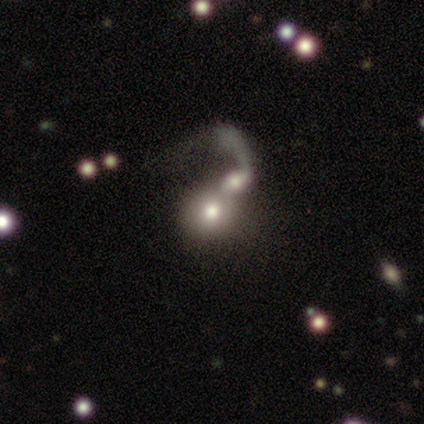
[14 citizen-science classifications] This is possibly a smooth galaxy (57%). How rounded: possibly in between (50%). Merging: likely merger (71%).